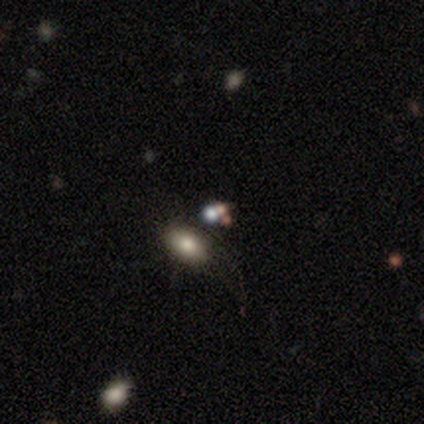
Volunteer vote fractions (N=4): This appears to be a smooth galaxy with no disk features (50%) that is round (50%, tied with in between). Merging: none (67%).